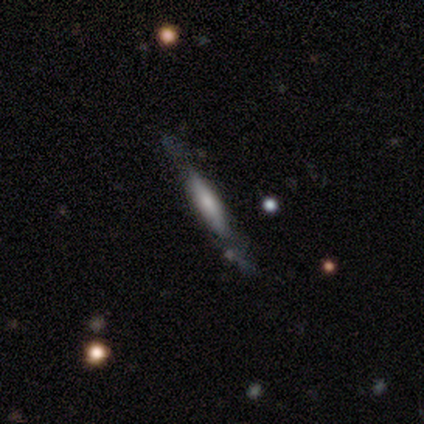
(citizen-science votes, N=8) Q: Smooth or featured?
A: featured or disk (50%); runner-up: smooth (25%)
Q: Edge-on disk?
A: yes (100%)
Q: Edge-on bulge?
A: rounded (75%); runner-up: none (25%)
Q: Merging?
A: none (67%); runner-up: minor disturbance (33%)